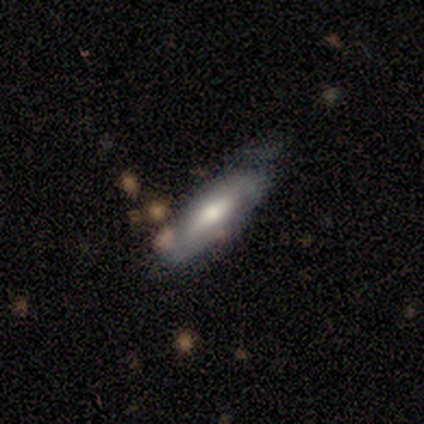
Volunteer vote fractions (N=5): Smooth or featured: featured or disk — 60% (smooth — 40%)
Edge-on disk: yes — 67% (no — 33%)
Edge-on bulge: rounded — 100%
Merging: minor disturbance — 60% (none — 40%)